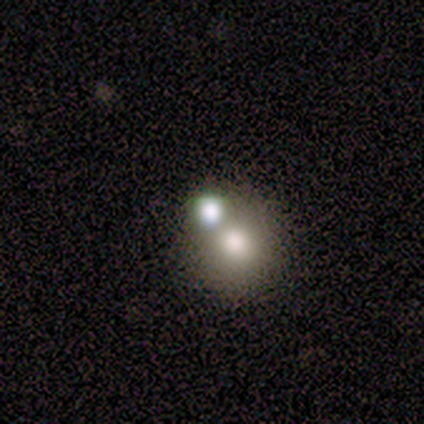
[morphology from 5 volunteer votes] A smooth galaxy with no disk features (40%, tied with featured or disk) that is round (100%).

Vote fractions:
- Smooth or featured? smooth: 40% (tied) / featured or disk: 40% (tied) / star or artifact: 20%
- How rounded? round: 100% / in between: 0% / cigar-shaped: 0%
- Merging? merger: 75% / none: 25% / minor disturbance: 0% / major disturbance: 0%